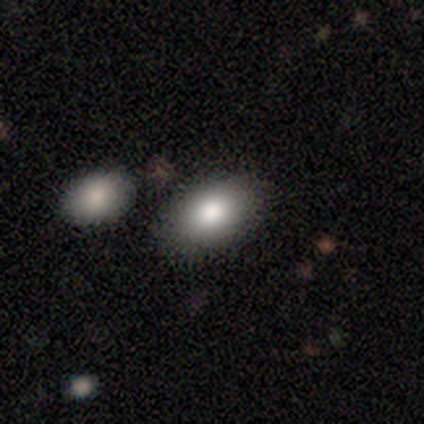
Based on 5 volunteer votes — Volunteers were most divided on "smooth or featured": smooth: 80%, featured or disk: 20%, star or artifact: 0%. More confident: how rounded — in between (100%); merging — none (80%).